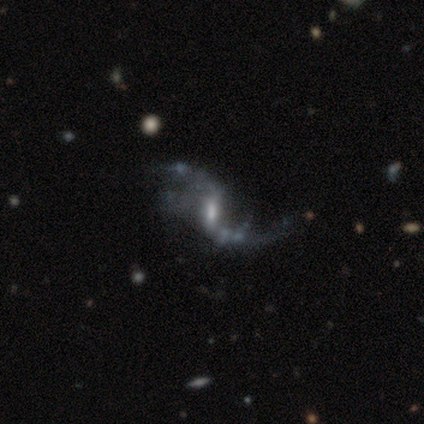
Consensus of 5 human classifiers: featured or disk 100%, smooth 0%, star or artifact 0%. Down the decision tree: edge-on disk — no (100%); bar — weak (80%); spiral arms — yes (100%); spiral arm count — 2 (100%); spiral winding — loose (80%); bulge size — small (40%); merging — major disturbance (60%).